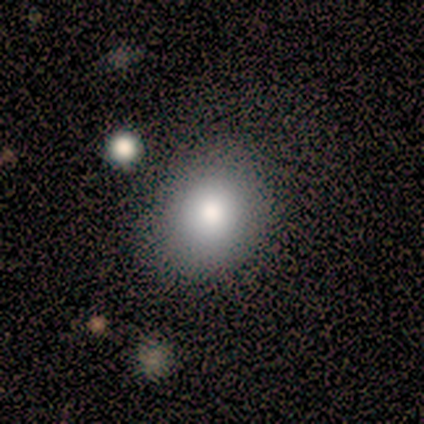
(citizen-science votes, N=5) smooth_or_featured: smooth (p=0.80) [alt: star or artifact p=0.20]
how_rounded: in between (p=0.75) [alt: round p=0.25]
merging: none (p=0.75) [alt: minor disturbance p=0.25]